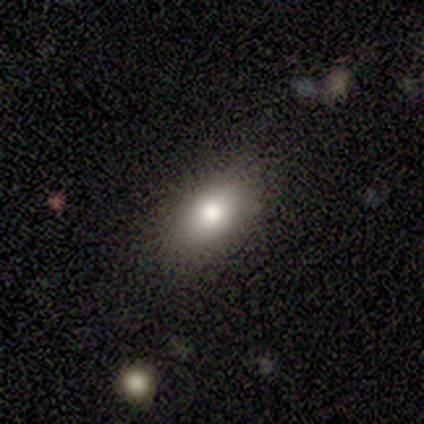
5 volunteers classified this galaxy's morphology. A smooth galaxy with no disk features (80%) that is in between round and cigar-shaped (75%).

Vote fractions:
- Smooth or featured? smooth: 80% / featured or disk: 20% / star or artifact: 0%
- How rounded? in between: 75% / cigar-shaped: 25% / round: 0%
- Merging? none: 100% / minor disturbance: 0% / major disturbance: 0% / merger: 0%